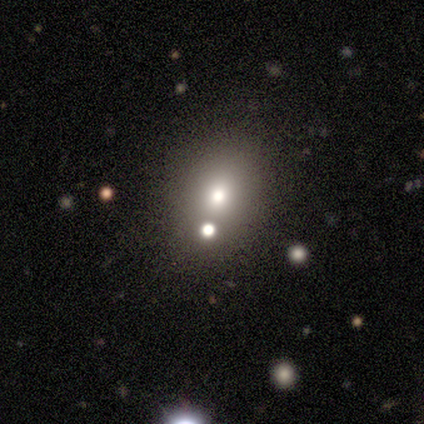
Overall: smooth (60%; star or artifact 40%). How rounded: round (67%; in between 33%). Merging: merger (100%).